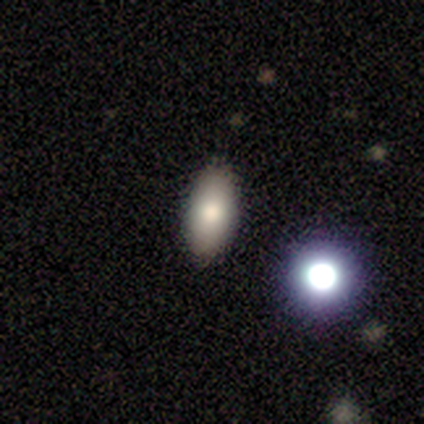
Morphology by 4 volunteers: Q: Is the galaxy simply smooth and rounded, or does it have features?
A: smooth — 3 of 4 (75%).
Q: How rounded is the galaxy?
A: in between — 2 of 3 (67%).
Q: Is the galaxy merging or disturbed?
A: none — 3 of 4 (75%).